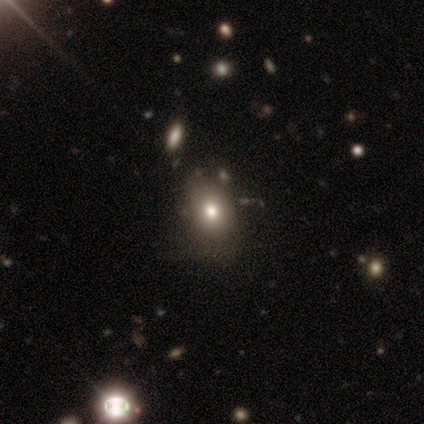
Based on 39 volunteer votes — Smooth or featured? 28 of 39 (72%) said smooth. How rounded? 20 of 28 (71%) said in between. Merging? 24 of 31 (77%) said none.